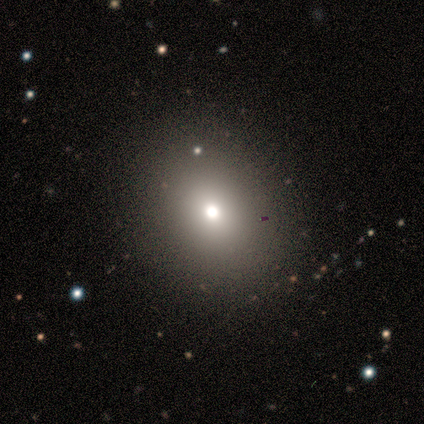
smooth-or-featured: smooth: 60% | featured or disk: 20% | star or artifact: 20%
  how-rounded: round: 83% | in between: 17% | cigar-shaped: 0%
  merging: none: 75% | minor disturbance: 25% | major disturbance: 0% | merger: 0%